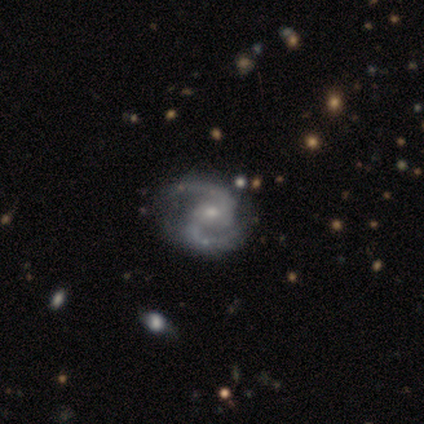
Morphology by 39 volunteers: This is clearly a featured or disk galaxy (100%). It is clearly not viewed edge-on (97%). Bar: likely no (61%). Spiral arm pattern: clearly yes (100%). Spiral arm count: clearly 2 (100%). Spiral winding: likely medium (63%). Central bulge: possibly moderate (55%). Merging: possibly none (49%).